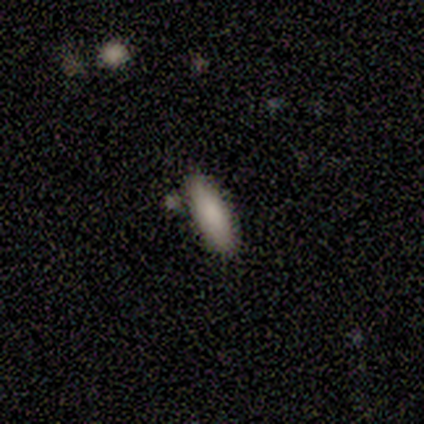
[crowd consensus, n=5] smooth_or_featured: smooth (p=1.00)
how_rounded: cigar-shaped (p=0.60) [alt: in between p=0.40]
merging: none (p=0.80) [alt: merger p=0.20]